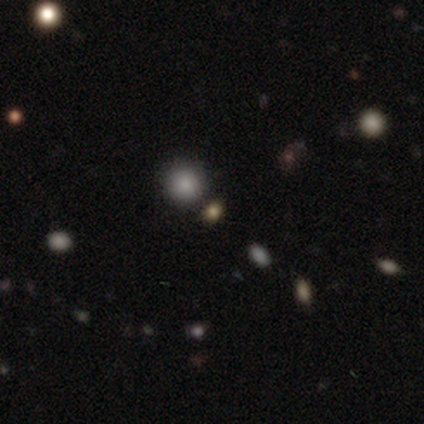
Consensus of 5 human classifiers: Overall: smooth (80%). How rounded: round (75%). Merging: none (100%).